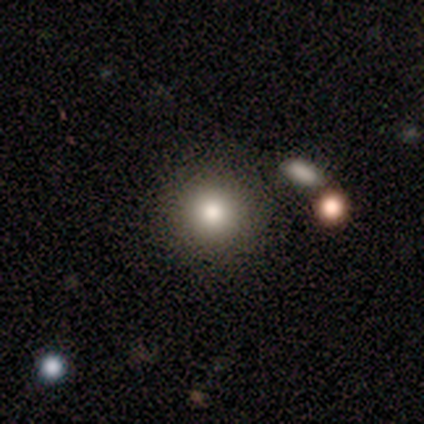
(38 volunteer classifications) smooth-or-featured: smooth: 79% | star or artifact: 13% | featured or disk: 8%
  how-rounded: round: 97% | in between: 3% | cigar-shaped: 0%
  merging: none: 82% | merger: 12% | minor disturbance: 0% | major disturbance: 0%